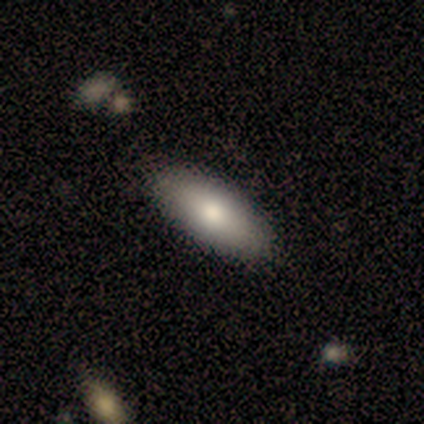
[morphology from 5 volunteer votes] Smooth or featured? smooth (100%)
How rounded? in between (100%)
Merging? none (100%)